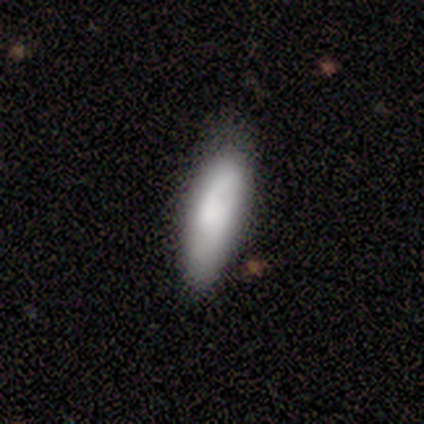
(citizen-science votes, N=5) A featured or disk galaxy (60%) with no bar (100%), 2 (100%) tight (50%, tied with medium) spiral arms (100%) and a moderate central bulge (100%). Merging: none (100%).